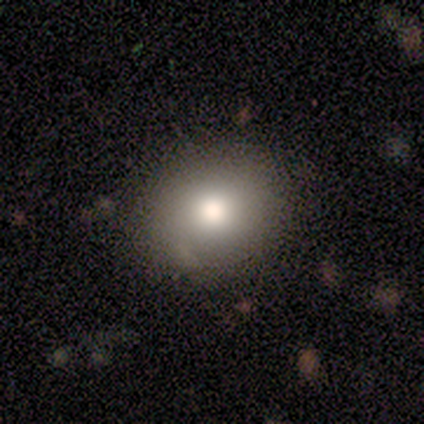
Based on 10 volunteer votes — Smooth or featured? 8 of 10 (80%) said smooth. How rounded? 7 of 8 (88%) said round. Merging? 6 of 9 (67%) said none.